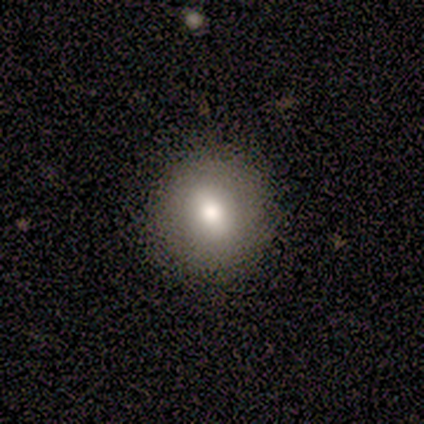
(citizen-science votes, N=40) A smooth galaxy with no disk features (78%) that is round (97%).

Vote fractions:
- Smooth or featured? smooth: 78% / featured or disk: 18% / star or artifact: 5%
- How rounded? round: 97% / in between: 3% / cigar-shaped: 0%
- Merging? none: 100% / minor disturbance: 0% / major disturbance: 0% / merger: 0%